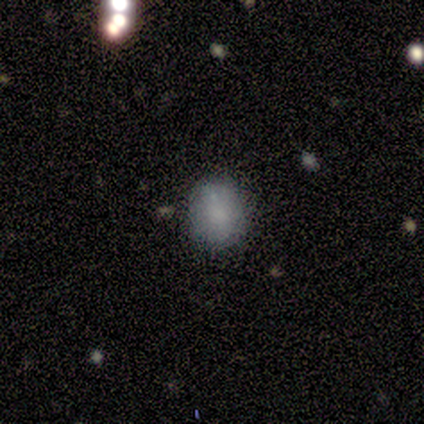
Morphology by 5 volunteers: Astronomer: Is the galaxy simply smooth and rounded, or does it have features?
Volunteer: smooth — 80%.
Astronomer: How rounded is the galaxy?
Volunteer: round — 75%.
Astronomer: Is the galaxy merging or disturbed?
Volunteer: minor disturbance — 60% (runner-up: none, 40%).